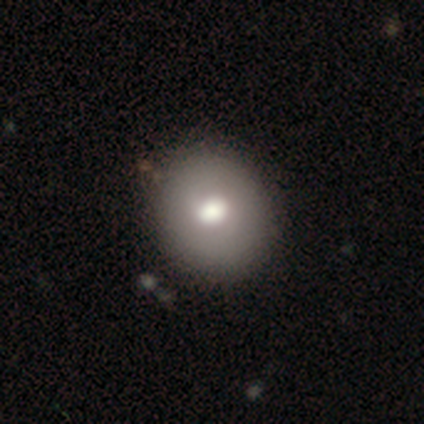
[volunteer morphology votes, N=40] smooth 70%, featured or disk 20%, star or artifact 10%. Down the decision tree: how rounded — round (89%); merging — none (72%).